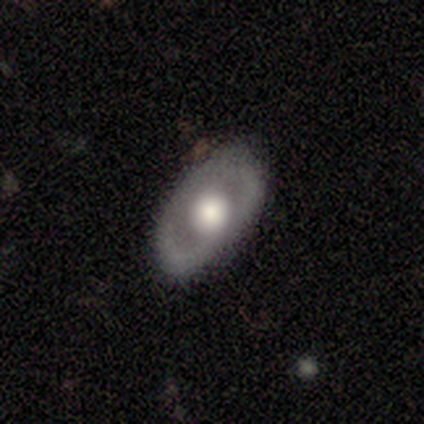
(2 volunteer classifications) Smooth or featured: smooth — 50% (tied with featured or disk — 50%)
How rounded: in between — 100%
Merging: none — 100%